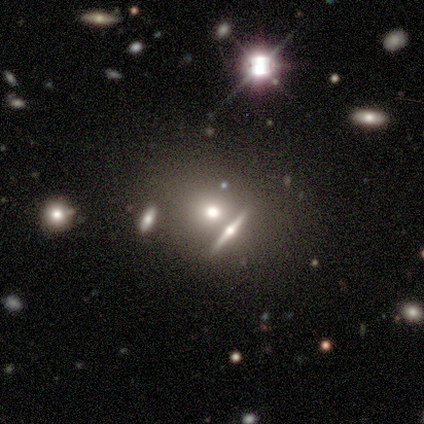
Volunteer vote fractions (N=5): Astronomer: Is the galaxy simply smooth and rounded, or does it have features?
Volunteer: smooth — 60%.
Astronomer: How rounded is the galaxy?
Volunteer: round — 67%.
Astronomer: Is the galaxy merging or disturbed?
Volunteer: none — 75%.